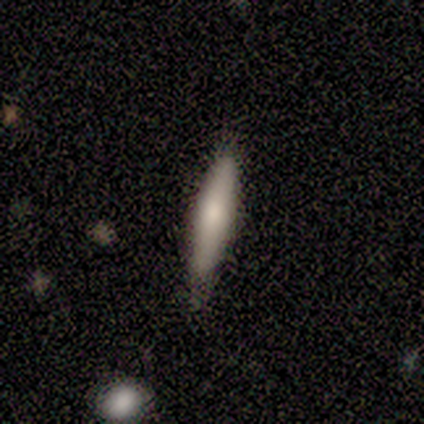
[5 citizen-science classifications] Smooth or featured? smooth (40%, tied with featured or disk)
How rounded? cigar-shaped (100%)
Merging? none (75%)